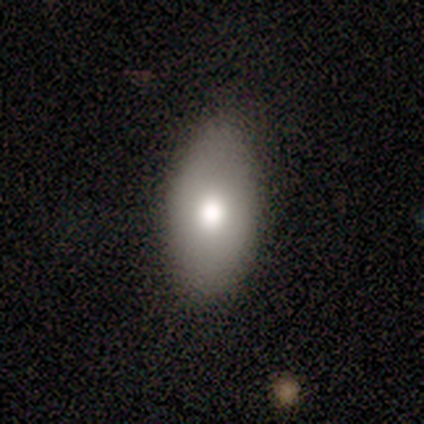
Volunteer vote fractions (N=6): Overall: smooth (50%, tied with featured or disk). How rounded: in between (100%). Merging: none (67%; minor disturbance 33%).